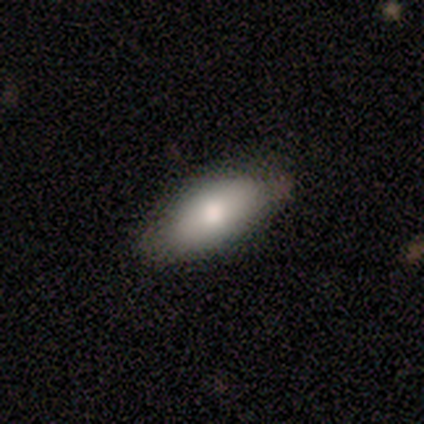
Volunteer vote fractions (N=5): A smooth galaxy with no disk features (100%) that is in between round and cigar-shaped (80%). Merging: none (60%).